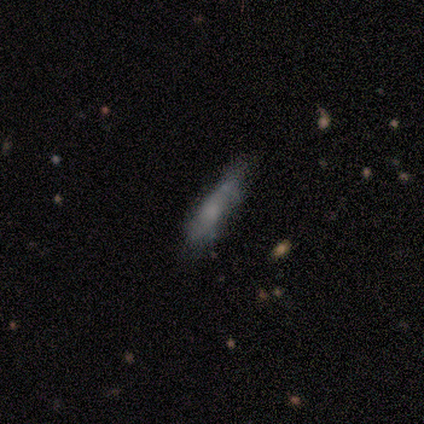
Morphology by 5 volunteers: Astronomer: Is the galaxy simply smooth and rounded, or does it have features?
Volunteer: smooth — 80%.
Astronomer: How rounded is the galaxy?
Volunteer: cigar-shaped — 75%.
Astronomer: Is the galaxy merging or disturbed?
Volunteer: none — 50%.